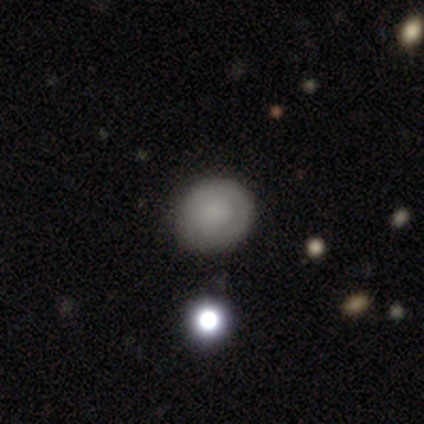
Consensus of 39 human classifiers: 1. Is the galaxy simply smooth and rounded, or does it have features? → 72% smooth, 21% featured or disk, 8% star or artifact.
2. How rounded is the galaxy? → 82% round, 18% in between, 0% cigar-shaped.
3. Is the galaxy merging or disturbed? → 78% none, 17% minor disturbance, 6% merger, 0% major disturbance.